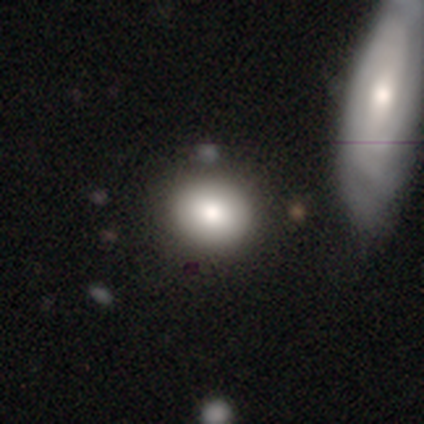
A smooth galaxy with no disk features (80%) that is round (75%).

Vote fractions:
- Smooth or featured? smooth: 80% / featured or disk: 20% / star or artifact: 0%
- How rounded? round: 75% / in between: 25% / cigar-shaped: 0%
- Merging? none: 100% / minor disturbance: 0% / major disturbance: 0% / merger: 0%